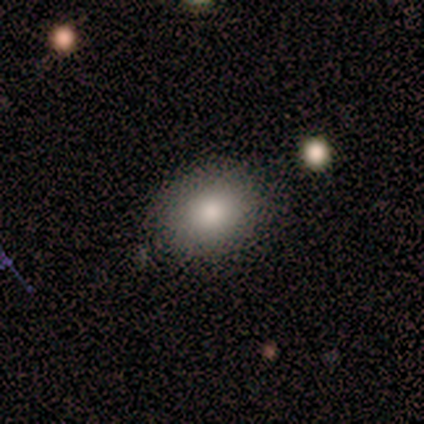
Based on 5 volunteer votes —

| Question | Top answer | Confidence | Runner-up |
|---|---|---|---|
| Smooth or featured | smooth | 60% | featured or disk (20%) |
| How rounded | in between | 67% | round (33%) |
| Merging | none | 75% | minor disturbance (25%) |